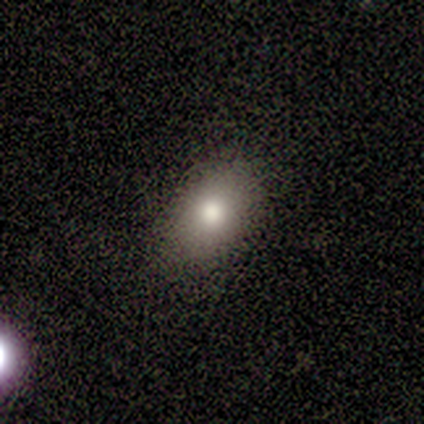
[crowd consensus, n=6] Smooth or featured: smooth — 67% (featured or disk — 17%)
How rounded: in between — 75% (round — 25%)
Merging: none — 60% (minor disturbance — 40%)